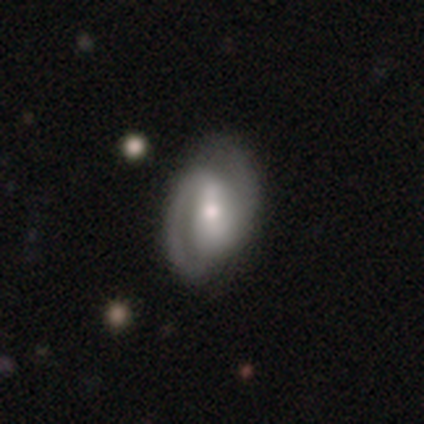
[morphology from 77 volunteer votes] type=featured or disk (87%); edge-on=no (96%); bar=weak (45%); spiral arms=yes (97%); winding=medium (47%); arm count=2 (94%); bulge=moderate (59%); merging=none (38%).